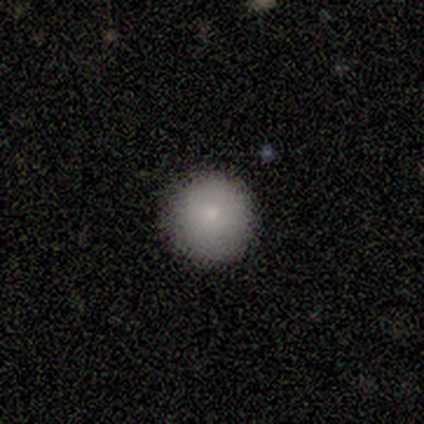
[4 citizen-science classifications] Overall: smooth (75%). How rounded: round (100%). Merging: none (100%).